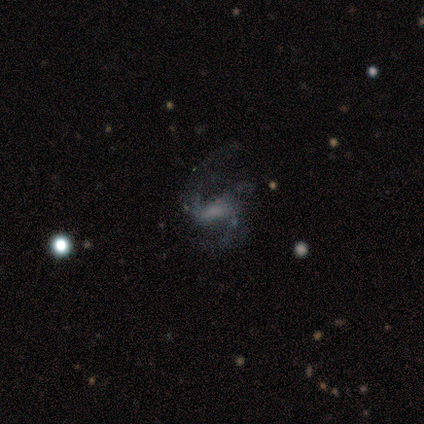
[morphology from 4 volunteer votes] Overall: featured or disk (75%). Edge-on disk: no (100%). Bar: weak (67%; no 33%). Spiral arms: yes (100%). Spiral arm count: 2 (67%; 1 33%). Spiral winding: loose (67%; medium 33%). Bulge size: none (100%). Merging: none (33%, tied with minor disturbance and major disturbance).